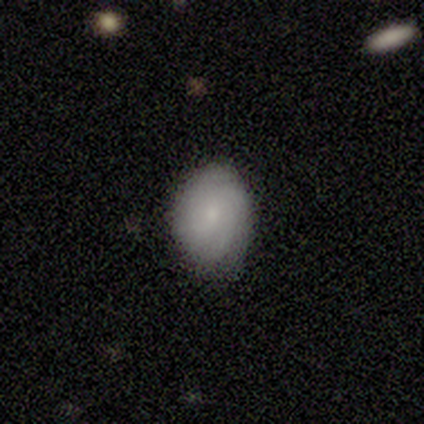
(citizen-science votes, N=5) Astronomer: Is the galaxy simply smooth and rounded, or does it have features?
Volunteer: smooth — 80%.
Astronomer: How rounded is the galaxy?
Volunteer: round — 50%, tied with in between at 50%.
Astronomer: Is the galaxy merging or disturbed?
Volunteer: none — 80%.